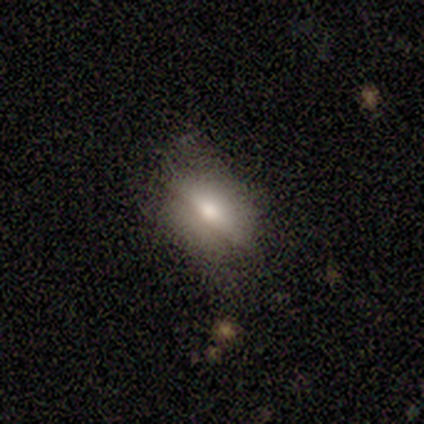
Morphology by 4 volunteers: This is possibly a smooth galaxy (50%, tied with featured or disk). How rounded: possibly round (50%, tied with in between). Merging: likely none (75%).